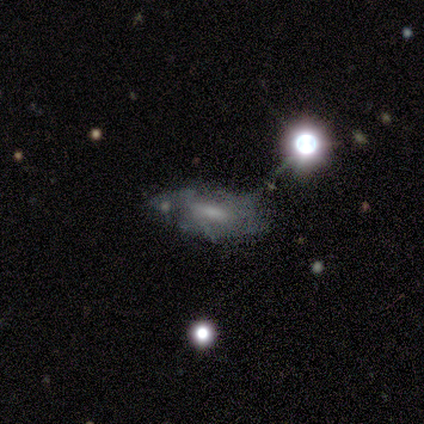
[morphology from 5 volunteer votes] Volunteers were most divided on "smooth or featured" (2-way tie): featured or disk: 40%, star or artifact: 40%, smooth: 20%; "spiral winding" (2-way tie): tight: 50%, medium: 50%, loose: 0%. More confident: edge-on disk — no (100%); bar — weak (100%); spiral arms — yes (100%); spiral arm count — can't tell (100%); bulge size — small (100%); merging — none (67%).